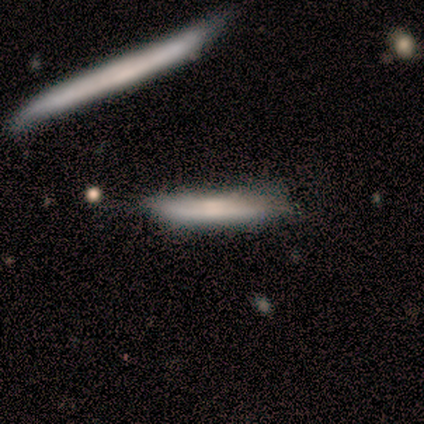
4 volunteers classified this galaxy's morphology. Overall: smooth (50%, tied with featured or disk). How rounded: cigar-shaped (100%). Merging: none (75%).